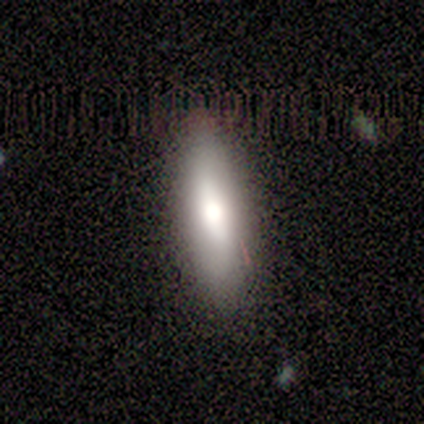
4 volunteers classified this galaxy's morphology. Q: Smooth or featured?
A: smooth (50%); tied with: featured or disk (50%)
Q: How rounded?
A: cigar-shaped (100%)
Q: Merging?
A: none (75%); runner-up: minor disturbance (25%)